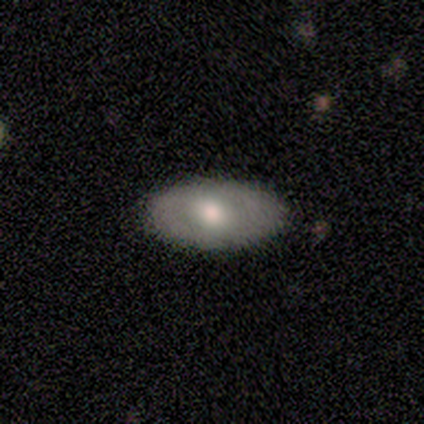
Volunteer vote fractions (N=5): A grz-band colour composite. It shows a smooth galaxy with no disk features (100%) that is in between round and cigar-shaped (100%). Merging: none (80%).